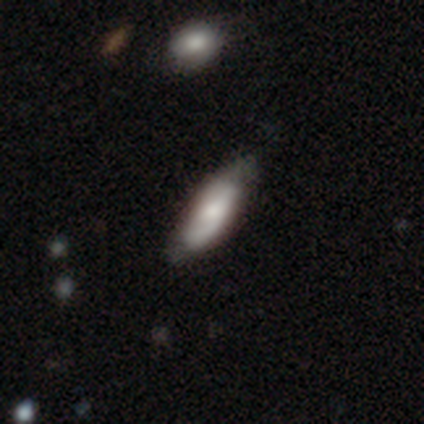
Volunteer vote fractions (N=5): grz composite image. It shows a smooth galaxy with no disk features (100%) that is in between round and cigar-shaped (60%). Merging: none (80%).